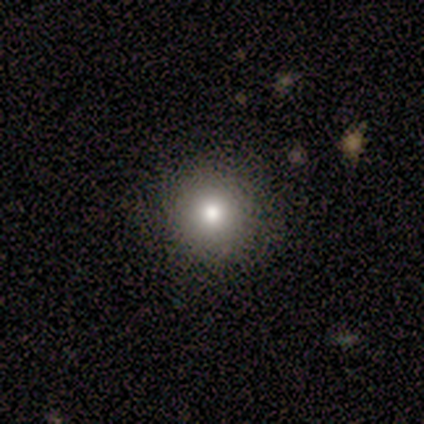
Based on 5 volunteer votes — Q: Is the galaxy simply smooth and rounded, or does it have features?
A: smooth — 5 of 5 (100%).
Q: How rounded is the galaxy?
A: round — 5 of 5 (100%).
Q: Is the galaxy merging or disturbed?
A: none — 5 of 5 (100%).